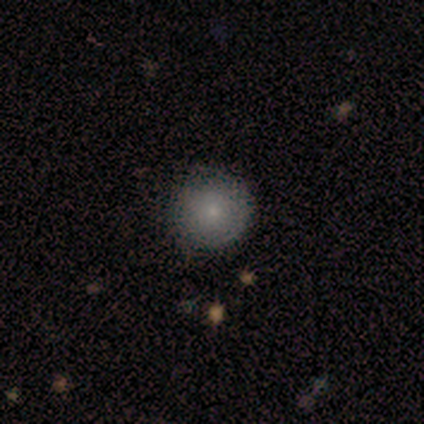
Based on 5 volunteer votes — Consensus on every question: smooth or featured — smooth (100%); how rounded — round (100%); merging — none (100%).